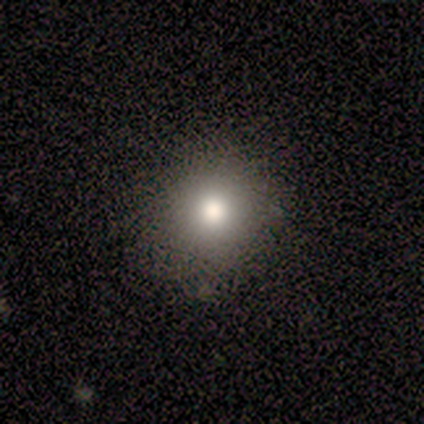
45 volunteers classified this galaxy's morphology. Overall: smooth (80%). How rounded: round (92%). Merging: none (88%).